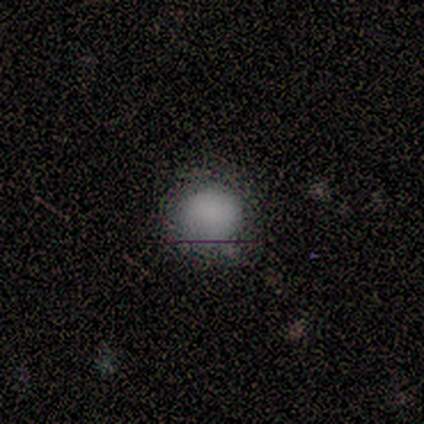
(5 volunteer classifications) A smooth galaxy with no disk features (60%) that is round (100%). Merging: none (75%).